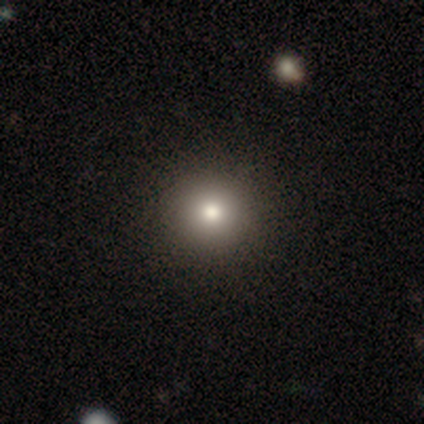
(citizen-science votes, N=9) Overall: smooth (56%; star or artifact 33%). How rounded: round (100%). Merging: none (83%).